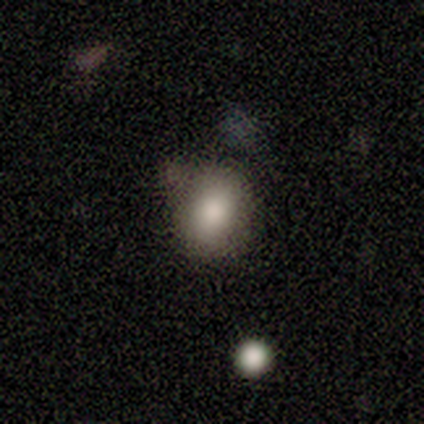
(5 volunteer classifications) smooth 100%, featured or disk 0%, star or artifact 0%. Down the decision tree: how rounded — round (80%); merging — none (60%).